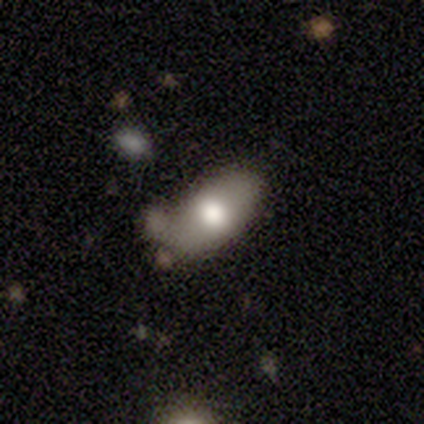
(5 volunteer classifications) Smooth or featured? 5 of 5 (100%) said smooth. How rounded? 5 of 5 (100%) said in between. Merging? 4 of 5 (80%) said minor disturbance.